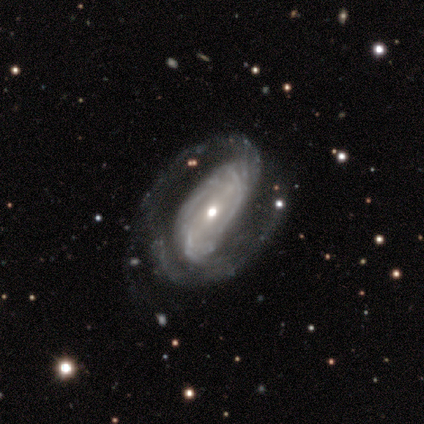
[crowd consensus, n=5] Overall: featured or disk (80%). Edge-on disk: no (100%). Bar: strong (50%; weak 25%). Spiral arms: yes (75%). Spiral arm count: 2 (67%; can't tell 33%). Spiral winding: tight (67%; medium 33%). Bulge size: moderate (75%). Merging: minor disturbance (60%; major disturbance 40%).